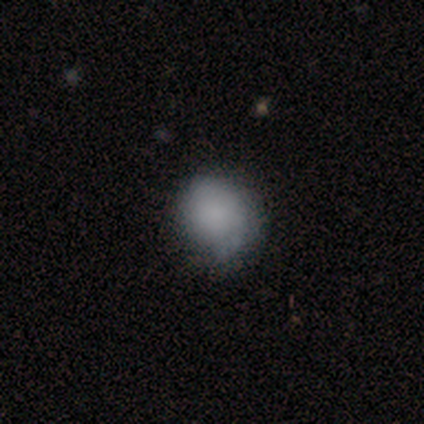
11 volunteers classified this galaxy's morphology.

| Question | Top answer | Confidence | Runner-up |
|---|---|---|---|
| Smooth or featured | smooth | 82% | featured or disk (18%) |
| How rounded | round | 67% | in between (33%) |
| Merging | none | 82% | minor disturbance (18%) |